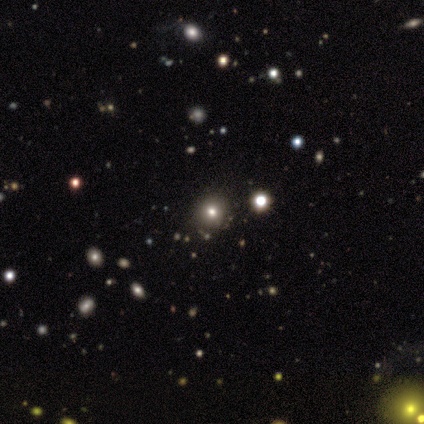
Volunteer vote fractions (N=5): Smooth or featured: smooth — 40% (tied with star or artifact — 40%)
How rounded: round — 100%
Merging: none — 100%